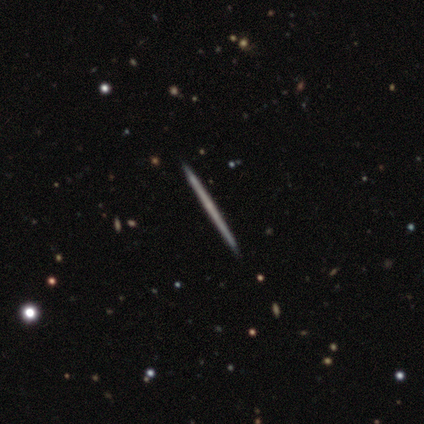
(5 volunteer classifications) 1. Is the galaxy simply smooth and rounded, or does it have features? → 80% smooth, 20% featured or disk, 0% star or artifact.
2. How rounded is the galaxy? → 100% cigar-shaped, 0% round, 0% in between.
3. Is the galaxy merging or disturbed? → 100% none, 0% minor disturbance, 0% major disturbance, 0% merger.